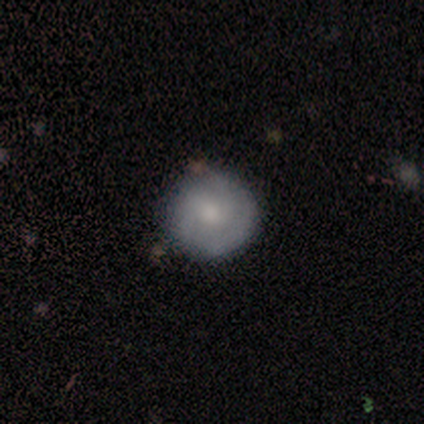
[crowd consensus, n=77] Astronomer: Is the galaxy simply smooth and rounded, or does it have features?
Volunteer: smooth — 47% (runner-up: featured or disk, 45%).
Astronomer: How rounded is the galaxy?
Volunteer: round — 100%.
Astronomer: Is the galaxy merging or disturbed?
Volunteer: none — 52%.